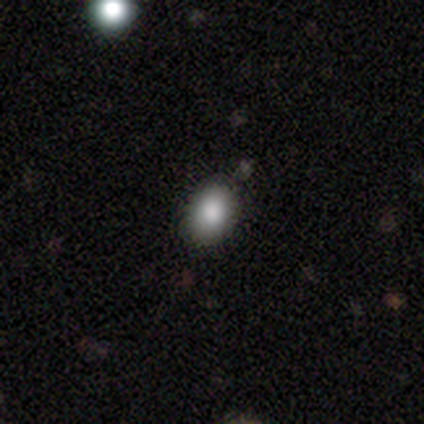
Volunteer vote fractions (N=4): Overall: smooth (75%). How rounded: in between (67%; round 33%). Merging: none (67%; minor disturbance 33%).